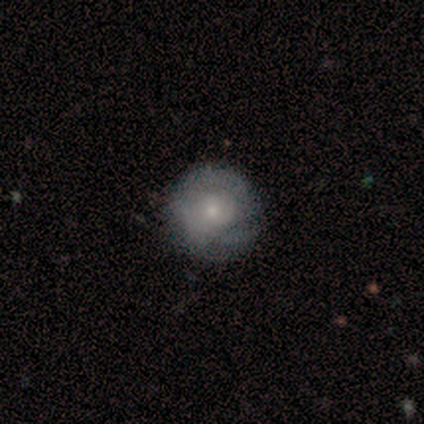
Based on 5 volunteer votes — A smooth galaxy with no disk features (60%) that is round (100%).

Vote fractions:
- Smooth or featured? smooth: 60% / featured or disk: 20% / star or artifact: 20%
- How rounded? round: 100% / in between: 0% / cigar-shaped: 0%
- Merging? minor disturbance: 75% / none: 25% / major disturbance: 0% / merger: 0%